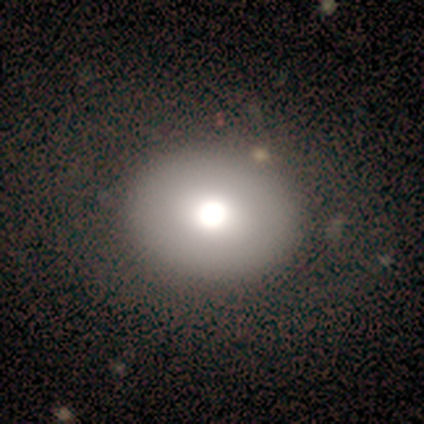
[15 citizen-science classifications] A smooth galaxy with no disk features (73%) that is in between round and cigar-shaped (64%). Merging: none (86%).